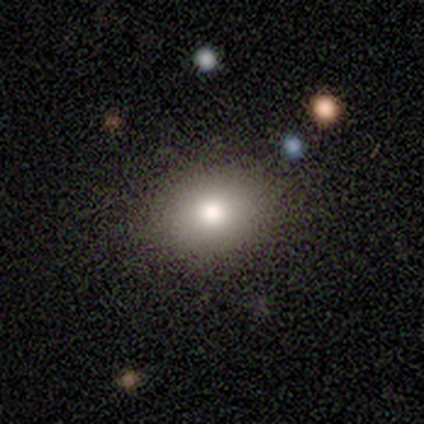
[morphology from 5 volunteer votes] A smooth galaxy with no disk features (100%) that is round (60%). Merging: none (80%).